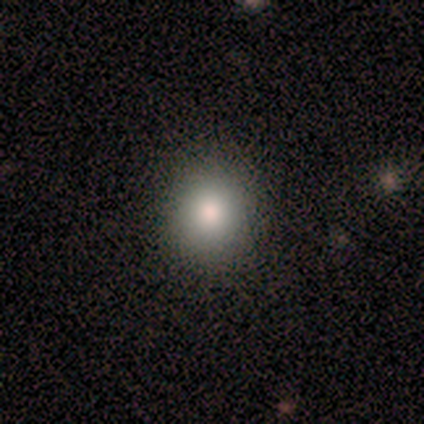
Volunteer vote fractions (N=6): smooth_or_featured: smooth (p=0.67) [alt: star or artifact p=0.33]
how_rounded: round (p=1.00)
merging: none (p=1.00)